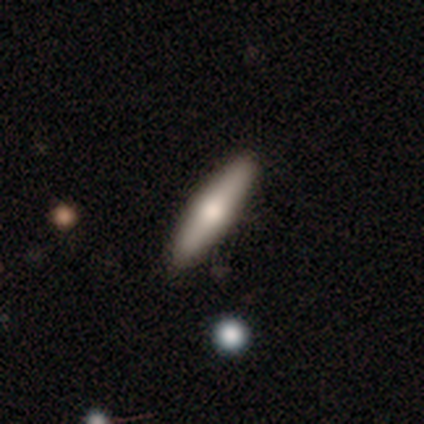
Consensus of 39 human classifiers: Volunteers were most divided on "smooth or featured": smooth: 51%, featured or disk: 41%, star or artifact: 8%. More confident: how rounded — cigar-shaped (90%); merging — none (81%).